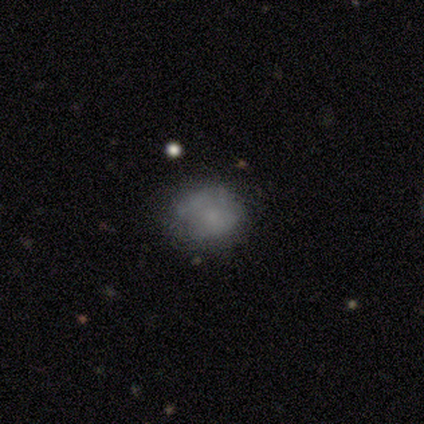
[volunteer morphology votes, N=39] A smooth galaxy with no disk features (69%) that is round (63%). Merging: none (60%).